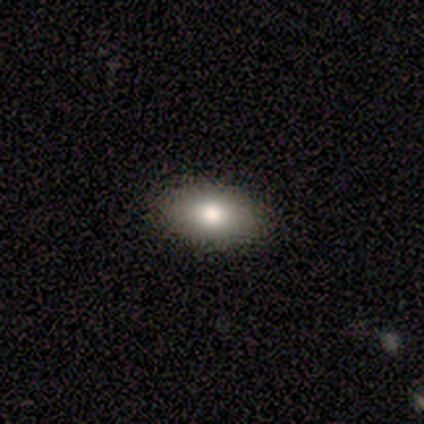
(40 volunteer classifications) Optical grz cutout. It shows a smooth galaxy with no disk features (95%) that is in between round and cigar-shaped (95%). Merging: none (100%).